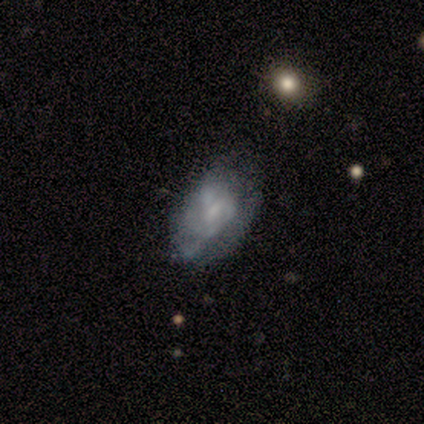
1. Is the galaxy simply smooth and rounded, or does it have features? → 57% featured or disk, 43% smooth, 0% star or artifact.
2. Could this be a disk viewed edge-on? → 100% no, 0% yes.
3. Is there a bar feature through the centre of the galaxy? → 75% no, 25% weak, 0% strong.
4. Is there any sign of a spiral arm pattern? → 75% no, 25% yes.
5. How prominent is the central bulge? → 50% small (tied), 50% none (tied), 0% dominant, 0% large, 0% moderate.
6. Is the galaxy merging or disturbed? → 71% none, 29% minor disturbance, 0% major disturbance, 0% merger.